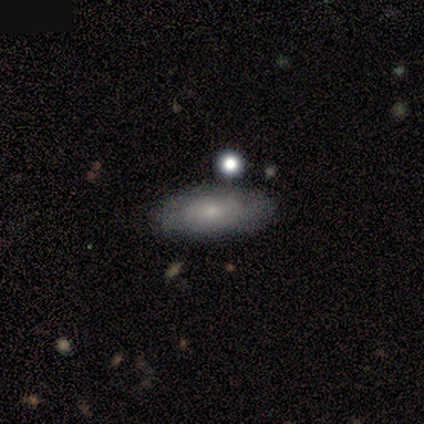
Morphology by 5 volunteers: This is clearly a smooth galaxy (80%). How rounded: clearly in between (100%). Merging: clearly none (80%).